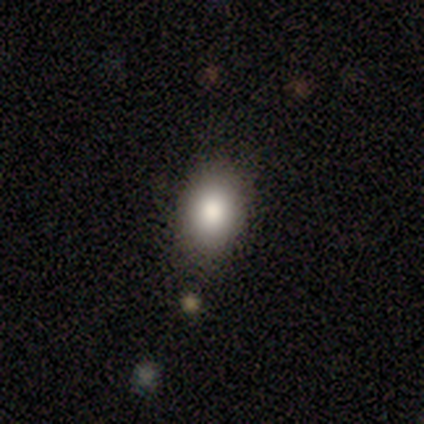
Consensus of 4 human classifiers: Smooth or featured: smooth — 100%
How rounded: in between — 100%
Merging: none — 75% (minor disturbance — 25%)